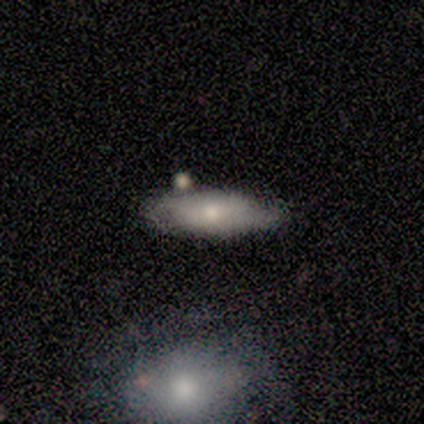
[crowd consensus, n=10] Smooth or featured: smooth — 80% (featured or disk — 20%)
How rounded: in between — 75% (cigar-shaped — 25%)
Merging: none — 80% (minor disturbance — 20%)